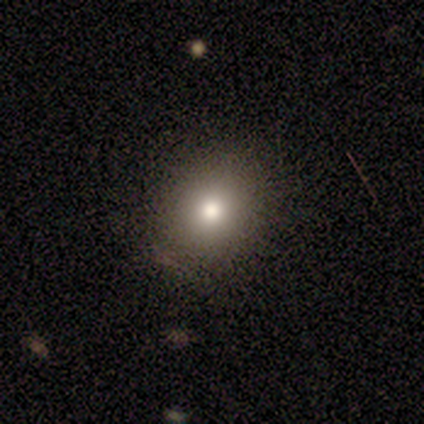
Smooth or featured?
  - smooth: 90% *
  - star or artifact: 10%
  - featured or disk: 0%
How rounded?
  - round: 78% *
  - in between: 22%
  - cigar-shaped: 0%
Merging?
  - none: 89% *
  - minor disturbance: 11%
  - major disturbance: 0%
  - merger: 0%